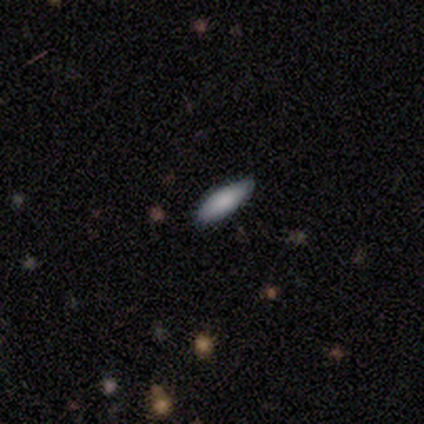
Smooth or featured? smooth (50%, tied with star or artifact)
How rounded? in between (100%)
Merging? none (100%)